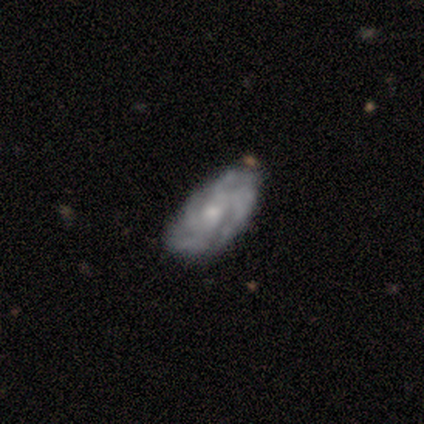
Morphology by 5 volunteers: type=featured or disk (80%); edge-on=no (100%); bar=no (100%); spiral arms=yes (100%); winding=medium (75%); arm count=4 (50%, tied with can't tell); bulge=small (75%); merging=none (80%).